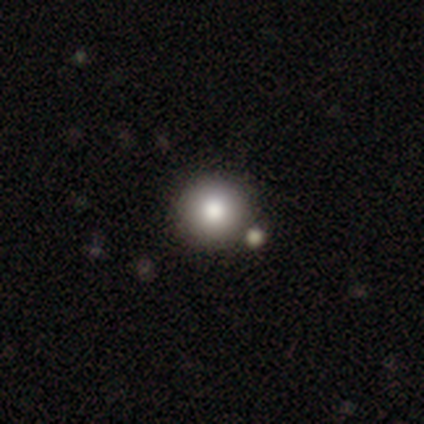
smooth-or-featured: smooth: 82% | star or artifact: 11% | featured or disk: 6%
  how-rounded: round: 98% | in between: 2% | cigar-shaped: 0%
  merging: none: 49% | merger: 13% | minor disturbance: 4% | major disturbance: 1%